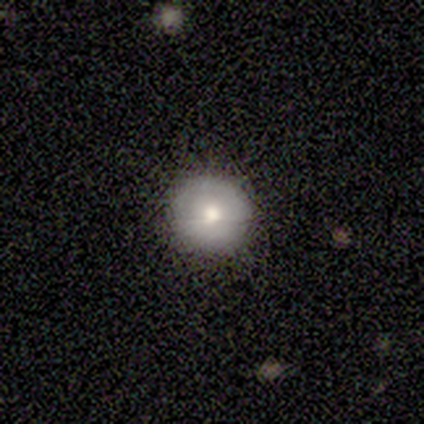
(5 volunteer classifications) smooth 60%, featured or disk 40%, star or artifact 0%. Down the decision tree: how rounded — round (67%); merging — none (60%).